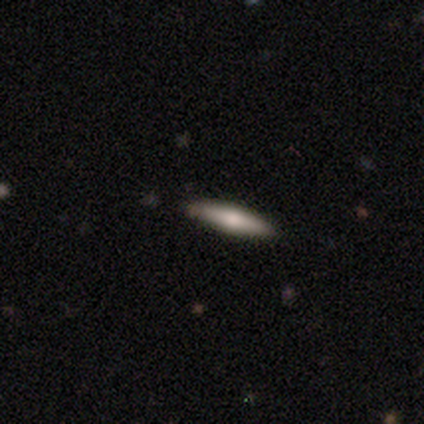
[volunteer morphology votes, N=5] smooth 60%, featured or disk 20%, star or artifact 20%. Down the decision tree: how rounded — cigar-shaped (100%); merging — none (100%).